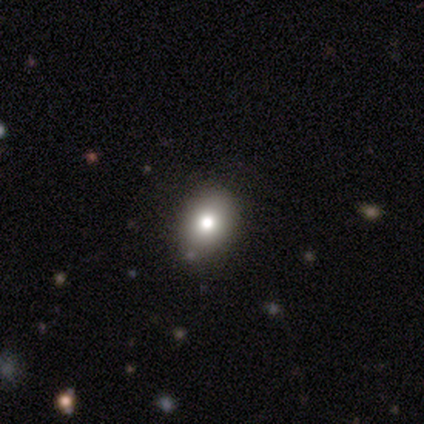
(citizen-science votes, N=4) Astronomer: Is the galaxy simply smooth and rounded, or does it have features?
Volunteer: smooth — 100%.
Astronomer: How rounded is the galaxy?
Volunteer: in between — 100%.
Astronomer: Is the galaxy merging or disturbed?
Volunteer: none — 100%.